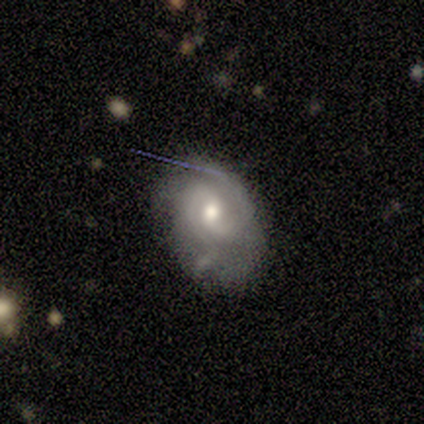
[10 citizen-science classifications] This appears to be a featured or disk galaxy (80%) with no bar (50%), 2 (71%) medium (57%) spiral arms (88%) and a moderate central bulge (75%). Merging: none (40%, tied with major disturbance).